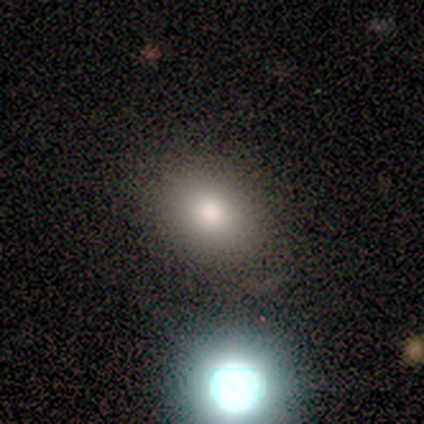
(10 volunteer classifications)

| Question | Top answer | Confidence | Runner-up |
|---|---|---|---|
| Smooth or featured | smooth | 50% | featured or disk (40%) |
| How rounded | in between | 60% | round (40%) |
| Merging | none | 78% | minor disturbance (11%) |